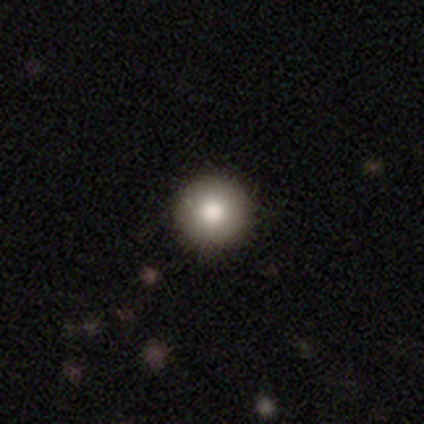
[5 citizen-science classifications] Morphology: type=smooth (80%); roundness=round (100%); merging=none (100%).